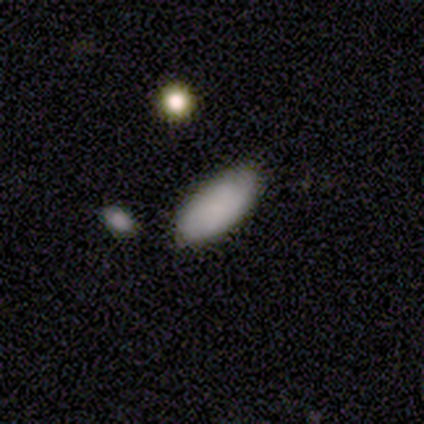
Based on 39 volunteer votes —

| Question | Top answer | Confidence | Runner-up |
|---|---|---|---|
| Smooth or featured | smooth | 87% | star or artifact (10%) |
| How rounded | in between | 97% | cigar-shaped (3%) |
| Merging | none | 69% | minor disturbance (29%) |